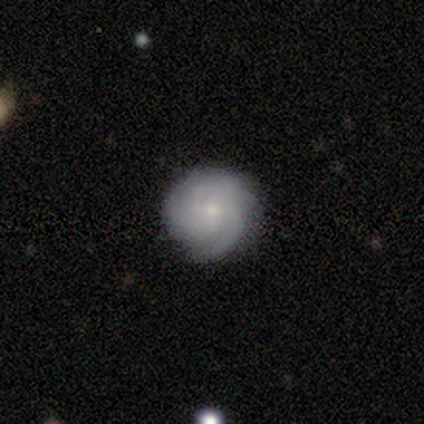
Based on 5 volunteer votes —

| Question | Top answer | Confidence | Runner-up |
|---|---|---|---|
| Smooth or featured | featured or disk | 60% | smooth (40%) |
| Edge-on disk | no | 100% | — |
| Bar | no | 100% | — |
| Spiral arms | yes | 100% | — |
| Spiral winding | tight | 100% | — |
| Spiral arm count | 3 | 33% | tied: 4 (33%), can't tell (33%) |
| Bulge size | small | 100% | — |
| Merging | none | 80% | minor disturbance (20%) |